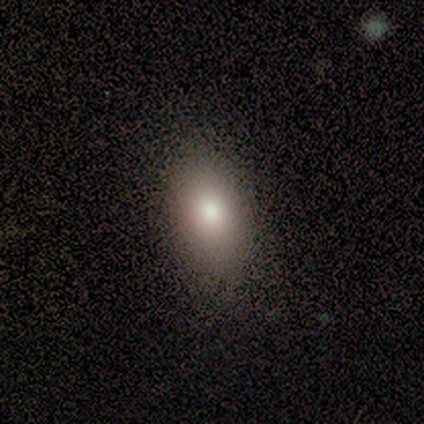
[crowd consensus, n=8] Morphology: type=smooth (88%); roundness=in between (100%); merging=none (86%).